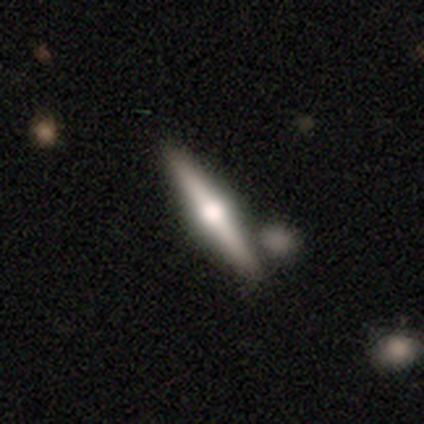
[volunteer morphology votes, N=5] smooth_or_featured: featured or disk (p=1.00)
disk_edge_on: yes (p=1.00)
edge_on_bulge: rounded (p=1.00)
merging: none (p=0.80) [alt: merger p=0.20]